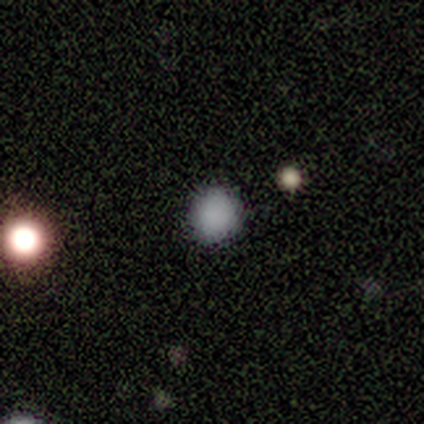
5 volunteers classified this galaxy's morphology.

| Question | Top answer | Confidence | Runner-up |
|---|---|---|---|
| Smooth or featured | smooth | 80% | star or artifact (20%) |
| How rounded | round | 100% | — |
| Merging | none | 100% | — |